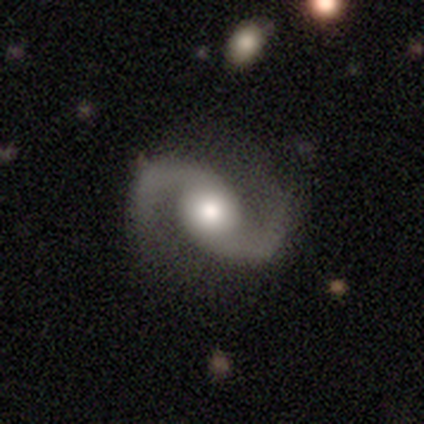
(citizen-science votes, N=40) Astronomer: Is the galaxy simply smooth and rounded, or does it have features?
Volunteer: featured or disk — 98%.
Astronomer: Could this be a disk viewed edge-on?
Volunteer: no — 100%.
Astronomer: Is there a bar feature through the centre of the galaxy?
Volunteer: no — 72%.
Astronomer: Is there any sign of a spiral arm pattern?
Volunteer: yes — 97%.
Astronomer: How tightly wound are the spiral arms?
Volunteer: loose — 68%.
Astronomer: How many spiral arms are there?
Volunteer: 2 — 97%.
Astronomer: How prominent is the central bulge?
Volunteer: moderate — 56% (runner-up: large, 33%).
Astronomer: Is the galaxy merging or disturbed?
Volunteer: none — 85%.